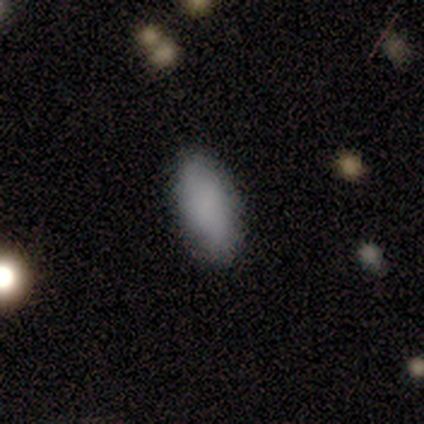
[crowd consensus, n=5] A smooth galaxy with no disk features (100%) that is in between round and cigar-shaped (80%).

Vote fractions:
- Smooth or featured? smooth: 100% / featured or disk: 0% / star or artifact: 0%
- How rounded? in between: 80% / cigar-shaped: 20% / round: 0%
- Merging? none: 100% / minor disturbance: 0% / major disturbance: 0% / merger: 0%